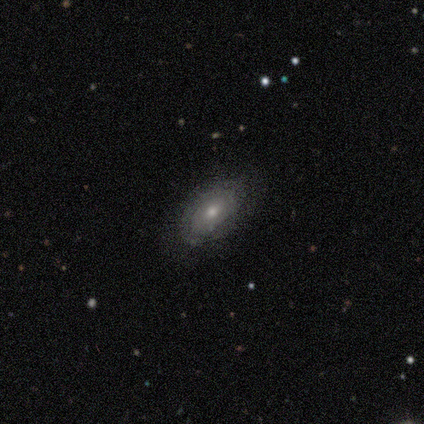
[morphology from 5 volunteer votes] smooth 60%, featured or disk 20%, star or artifact 20%. Down the decision tree: how rounded — in between (100%); merging — none (75%).